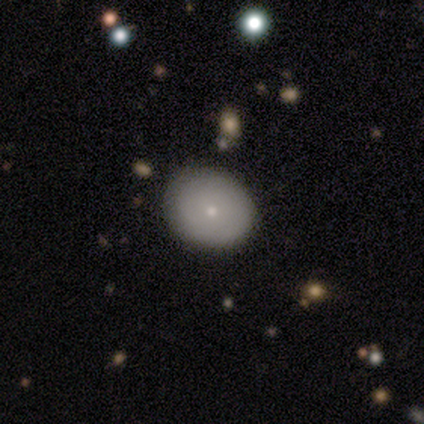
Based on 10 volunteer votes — This appears to be a smooth galaxy with no disk features (70%) that is in between round and cigar-shaped (57%). Merging: none (100%).